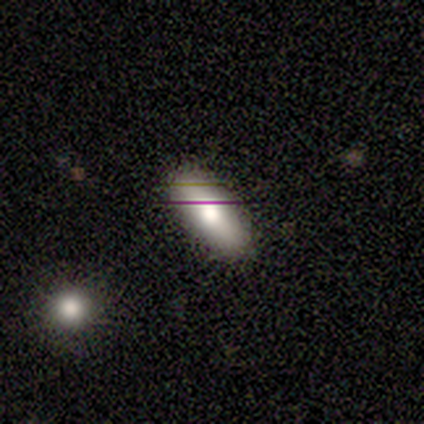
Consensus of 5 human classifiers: smooth_or_featured: smooth (p=0.80) [alt: featured or disk p=0.20]
how_rounded: in between (p=1.00)
merging: none (p=0.80) [alt: minor disturbance p=0.20]